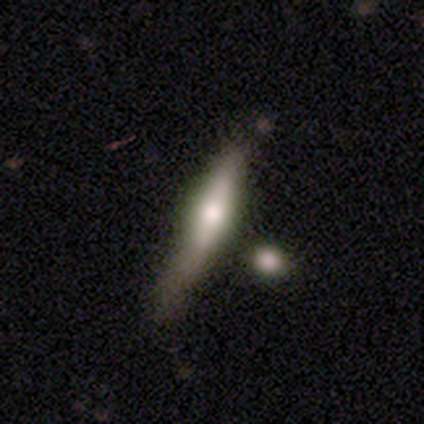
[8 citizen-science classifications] smooth 75%, featured or disk 25%, star or artifact 0%. Down the decision tree: how rounded — cigar-shaped (100%); merging — none (62%).